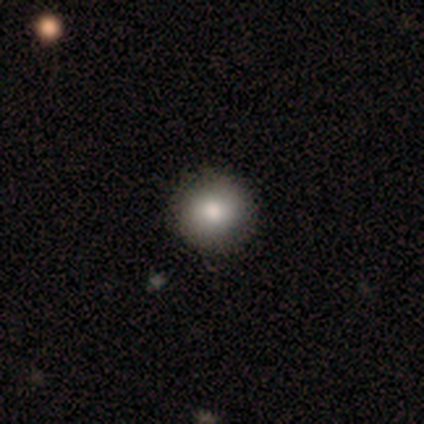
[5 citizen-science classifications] smooth-or-featured: smooth: 80% | featured or disk: 20% | star or artifact: 0%
  how-rounded: round: 100% | in between: 0% | cigar-shaped: 0%
  merging: none: 100% | minor disturbance: 0% | major disturbance: 0% | merger: 0%